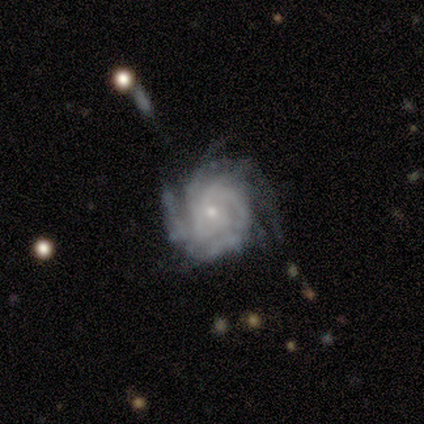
Smooth or featured? 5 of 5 (100%) said featured or disk. Edge-on disk? 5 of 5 (100%) said no. Bar? 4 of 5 (80%) said no. Spiral arms? 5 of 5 (100%) said yes. Spiral winding? 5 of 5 (100%) said tight. Spiral arm count? 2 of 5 (40%) said can't tell. Bulge size? 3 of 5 (60%) said small. Merging? 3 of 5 (60%) said none.